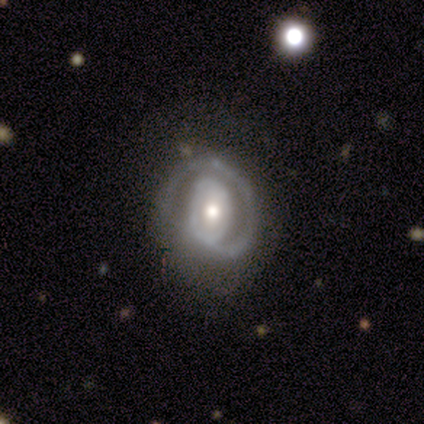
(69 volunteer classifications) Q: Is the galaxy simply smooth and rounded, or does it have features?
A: featured or disk — 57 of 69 (83%).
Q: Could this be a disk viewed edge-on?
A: no — 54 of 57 (95%).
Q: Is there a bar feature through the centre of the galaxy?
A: no — 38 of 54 (70%).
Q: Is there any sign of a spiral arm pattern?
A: yes — 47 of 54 (87%).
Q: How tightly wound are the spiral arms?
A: tight — 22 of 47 (47%).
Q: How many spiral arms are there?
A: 1 — 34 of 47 (72%).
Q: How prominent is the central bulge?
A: moderate — 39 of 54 (72%).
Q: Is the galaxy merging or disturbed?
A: none — 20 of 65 (31%).